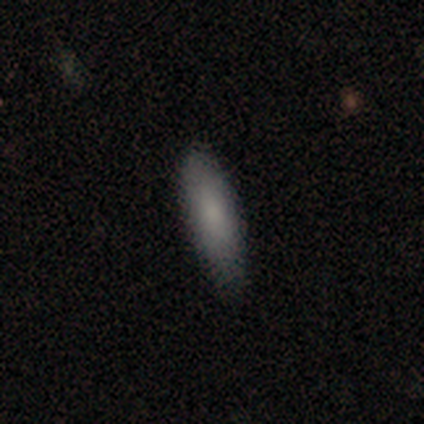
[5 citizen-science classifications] Morphology: type=smooth (80%); roundness=in between (75%); merging=none (60%).